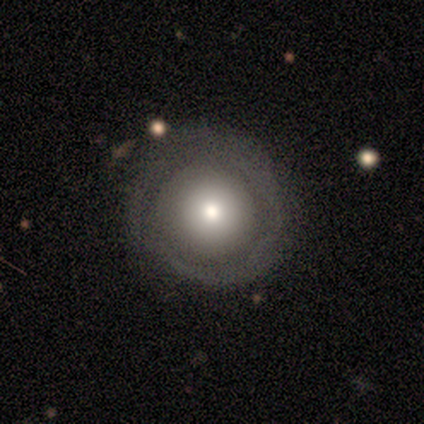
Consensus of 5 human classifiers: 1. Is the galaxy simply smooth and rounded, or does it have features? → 60% smooth, 40% featured or disk, 0% star or artifact.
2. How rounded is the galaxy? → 100% round, 0% in between, 0% cigar-shaped.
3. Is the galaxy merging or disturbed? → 60% none, 40% minor disturbance, 0% major disturbance, 0% merger.